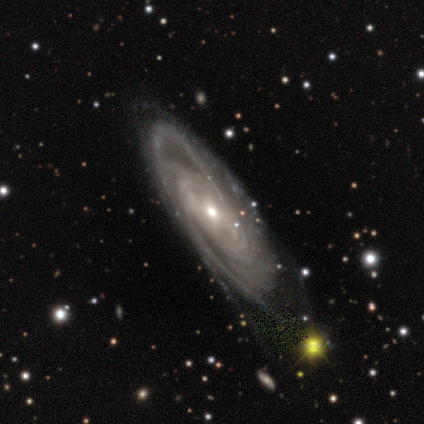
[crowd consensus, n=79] A featured or disk galaxy (97%) with no bar (61%), tight (64%) spiral arms (100%) and a moderate central bulge (51%). Merging: none (65%).